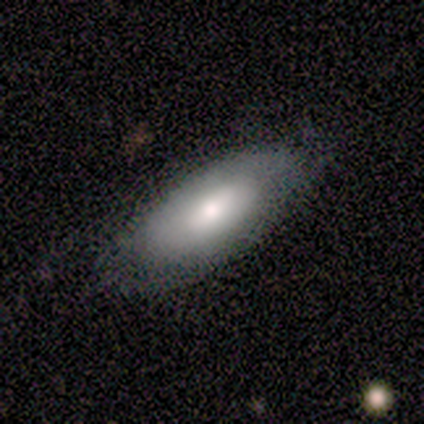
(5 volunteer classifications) smooth-or-featured: featured or disk: 60% | smooth: 40% | star or artifact: 0%
  disk-edge-on: no: 67% | yes: 33%
    bar: weak: 50% (tied) | no: 50% (tied) | strong: 0%
    has-spiral-arms: yes: 50% (tied) | no: 50% (tied)
      spiral-winding: medium: 100% | tight: 0% | loose: 0%
      spiral-arm-count: can't tell: 100% | 1: 0% | 2: 0% | 3: 0% | 4: 0% | more than 4: 0%
    bulge-size: moderate: 100% | dominant: 0% | large: 0% | small: 0% | none: 0%
  merging: none: 80% | minor disturbance: 20% | major disturbance: 0% | merger: 0%